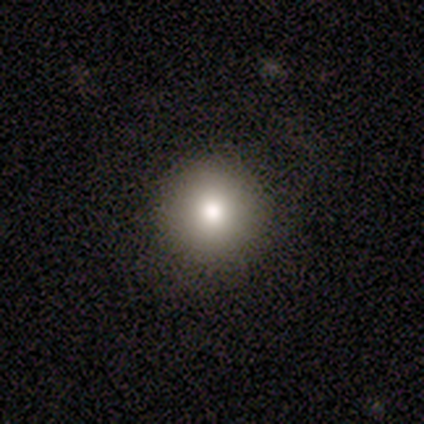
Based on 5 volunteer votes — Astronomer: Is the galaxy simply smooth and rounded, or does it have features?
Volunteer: smooth — 100%.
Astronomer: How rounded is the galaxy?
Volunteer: round — 80%.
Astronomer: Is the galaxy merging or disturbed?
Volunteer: none — 80%.